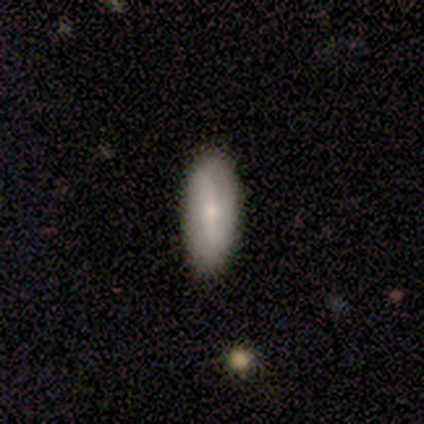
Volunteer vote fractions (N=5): featured or disk 60%, smooth 40%, star or artifact 0%. Down the decision tree: edge-on disk — no (100%); bar — strong (33%, tied with weak and no); spiral arms — no (100%); bulge size — moderate (67%); merging — none (100%).